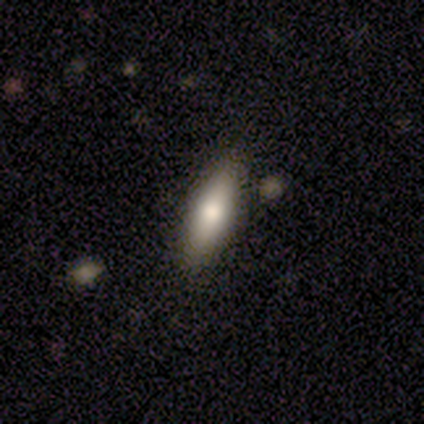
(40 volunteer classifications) Overall: smooth (70%). How rounded: in between (50%, tied with cigar-shaped). Merging: none (84%).